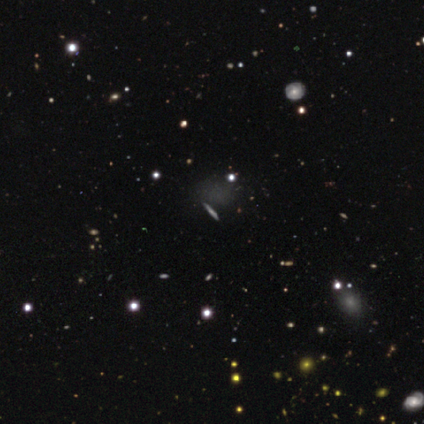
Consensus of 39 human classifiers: Volunteers were most divided on "smooth or featured": smooth: 38%, featured or disk: 36%, star or artifact: 26%. Remaining: merging — none (83%); how rounded — round (47%).